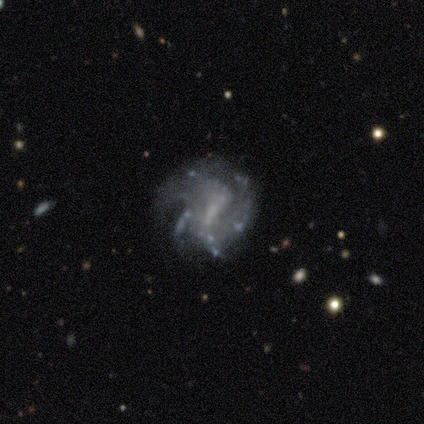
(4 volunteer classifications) Smooth or featured: featured or disk — 100%
Edge-on disk: no — 100%
Bar: no — 75% (strong — 25%)
Spiral arms: yes — 50% (tied with no — 50%)
Spiral winding: tight — 100%
Spiral arm count: more than 4 — 50% (tied with can't tell — 50%)
Bulge size: small — 50% (tied with none — 50%)
Merging: none — 50% (tied with major disturbance — 50%)